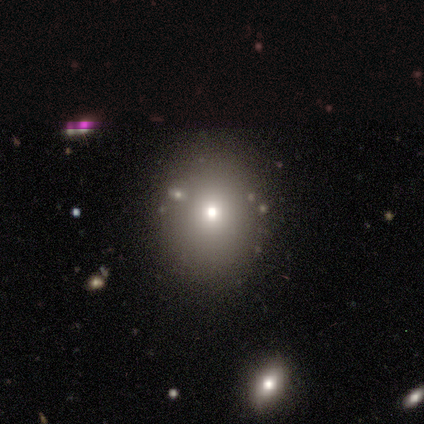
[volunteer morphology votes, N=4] Overall: smooth (50%, tied with star or artifact). How rounded: round (50%, tied with in between). Merging: none (100%).